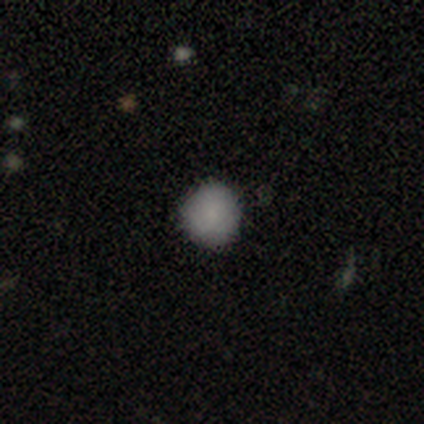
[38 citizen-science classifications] smooth-or-featured: smooth: 79% | star or artifact: 13% | featured or disk: 8%
  how-rounded: round: 87% | in between: 10% | cigar-shaped: 3%
  merging: none: 91% | major disturbance: 6% | minor disturbance: 3% | merger: 0%